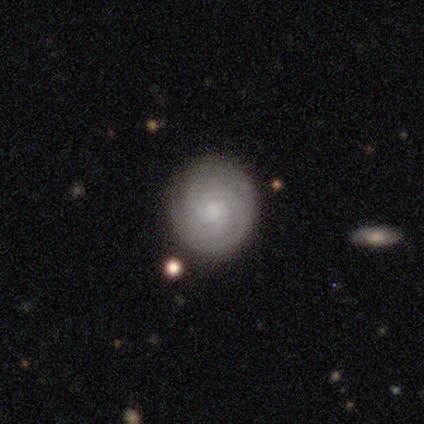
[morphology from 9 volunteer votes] Q: Smooth or featured?
A: featured or disk (100%)
Q: Edge-on disk?
A: no (89%); runner-up: yes (11%)
Q: Bar?
A: no (100%)
Q: Spiral arms?
A: yes (100%)
Q: Spiral winding?
A: tight (88%); runner-up: medium (12%)
Q: Spiral arm count?
A: 3 (50%); runner-up: 2 (38%)
Q: Bulge size?
A: moderate (62%); runner-up: small (38%)
Q: Merging?
A: none (100%)